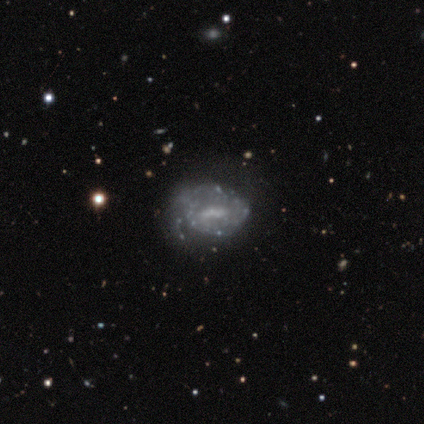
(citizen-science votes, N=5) Smooth or featured? 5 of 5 (100%) said featured or disk. Edge-on disk? 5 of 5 (100%) said no. Bar? 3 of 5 (60%) said weak. Spiral arms? 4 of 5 (80%) said no. Bulge size? 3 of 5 (60%) said none. Merging? 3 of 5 (60%) said major disturbance.